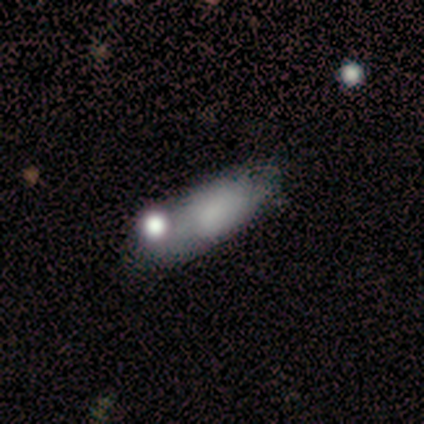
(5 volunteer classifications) smooth_or_featured: smooth (p=0.60) [alt: featured or disk p=0.40]
how_rounded: in between (p=1.00)
merging: none (p=0.80) [alt: merger p=0.20]